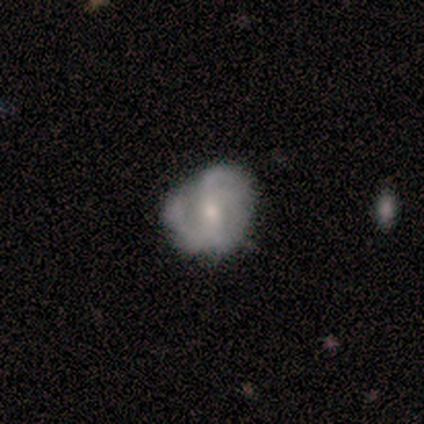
Q: Smooth or featured?
A: featured or disk (80%); runner-up: smooth (20%)
Q: Edge-on disk?
A: no (100%)
Q: Bar?
A: weak (75%); runner-up: no (25%)
Q: Spiral arms?
A: yes (75%); runner-up: no (25%)
Q: Spiral winding?
A: loose (67%); runner-up: medium (33%)
Q: Spiral arm count?
A: 2 (33%); tied with: 3 (33%); can't tell (33%)
Q: Bulge size?
A: small (100%)
Q: Merging?
A: none (100%)